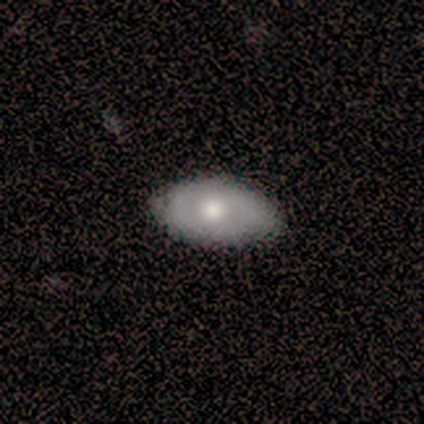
Overall: smooth (60%; featured or disk 40%). How rounded: in between (100%). Merging: none (100%).